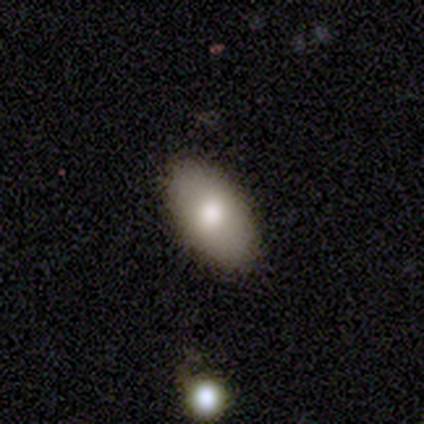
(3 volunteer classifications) This is likely a smooth galaxy (67%). How rounded: clearly in between (100%). Merging: clearly none (100%).